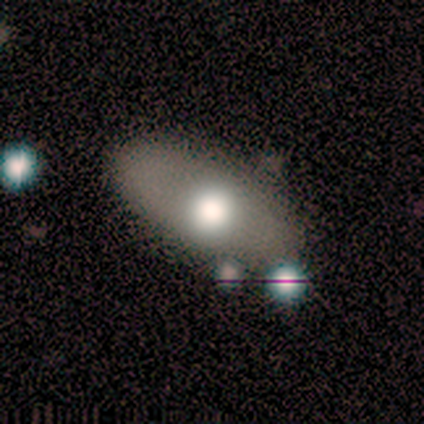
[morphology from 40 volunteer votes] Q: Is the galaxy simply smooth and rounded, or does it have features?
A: smooth — 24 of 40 (60%).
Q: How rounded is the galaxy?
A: in between — 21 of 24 (88%).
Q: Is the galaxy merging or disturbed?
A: none — 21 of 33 (64%).